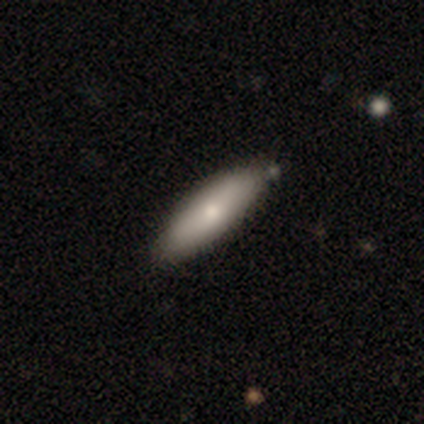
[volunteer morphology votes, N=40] type=smooth (68%); roundness=in between (48%, tied with cigar-shaped); merging=none (66%).